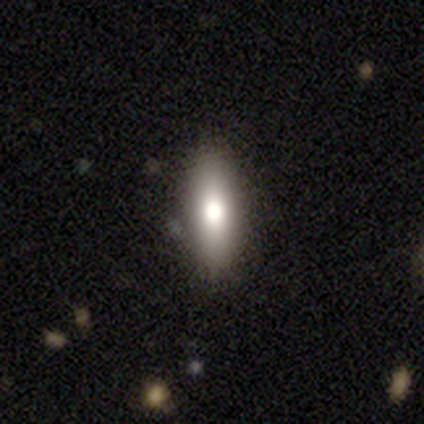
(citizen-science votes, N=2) Overall: smooth (50%, tied with featured or disk). How rounded: cigar-shaped (100%). Merging: none (100%).